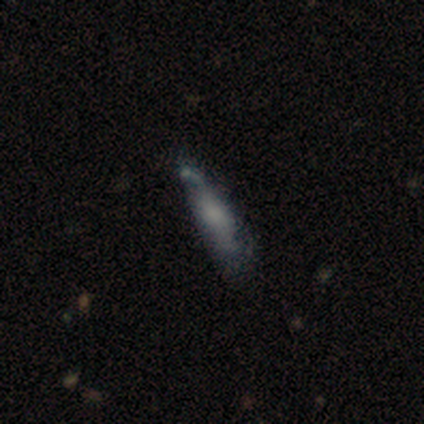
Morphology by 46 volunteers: A featured or disk galaxy (50%) with no bar (71%), no spiral arms (79%) and no central bulge (36%). Merging: minor disturbance (32%, tied with major disturbance).